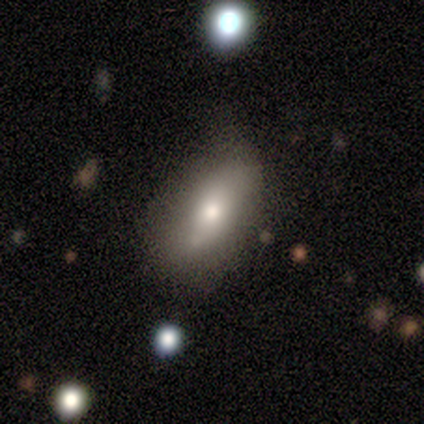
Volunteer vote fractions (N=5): This appears to be a smooth galaxy with no disk features (60%) that is in between round and cigar-shaped (67%). Merging: minor disturbance (60%).